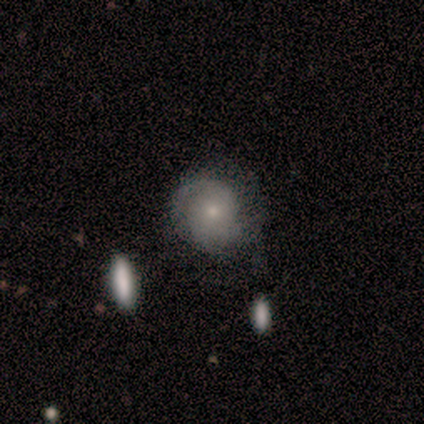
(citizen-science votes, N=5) smooth-or-featured: featured or disk: 60% | smooth: 20% | star or artifact: 20%
  disk-edge-on: no: 100% | yes: 0%
    bar: no: 67% | strong: 33% | weak: 0%
    has-spiral-arms: yes: 100% | no: 0%
      spiral-winding: tight: 67% | medium: 33% | loose: 0%
      spiral-arm-count: can't tell: 67% | 2: 33% | 1: 0% | 3: 0% | 4: 0% | more than 4: 0%
    bulge-size: moderate: 67% | small: 33% | dominant: 0% | large: 0% | none: 0%
  merging: none: 100% | minor disturbance: 0% | major disturbance: 0% | merger: 0%